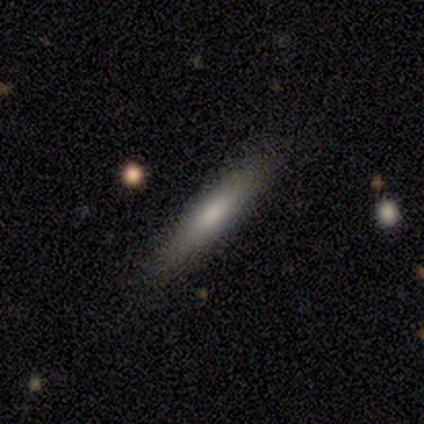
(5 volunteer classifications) smooth-or-featured: smooth: 100% | featured or disk: 0% | star or artifact: 0%
  how-rounded: cigar-shaped: 100% | round: 0% | in between: 0%
  merging: none: 80% | minor disturbance: 20% | major disturbance: 0% | merger: 0%